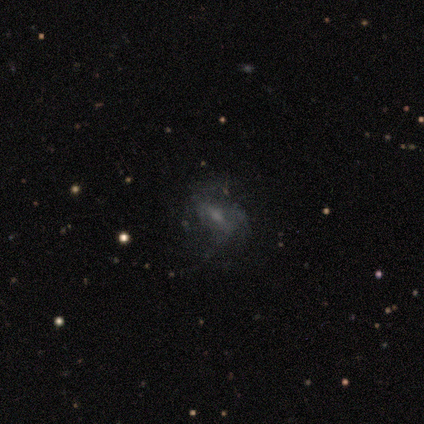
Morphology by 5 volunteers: A smooth galaxy with no disk features (60%) that is in between round and cigar-shaped (100%).

Vote fractions:
- Smooth or featured? smooth: 60% / featured or disk: 20% / star or artifact: 20%
- How rounded? in between: 100% / round: 0% / cigar-shaped: 0%
- Merging? none: 50% / minor disturbance: 25% / major disturbance: 25% / merger: 0%